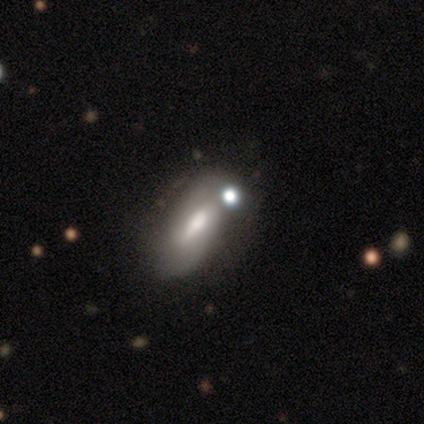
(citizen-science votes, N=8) Morphology: type=smooth (50%); roundness=in between (50%); merging=none (50%, tied with minor disturbance).